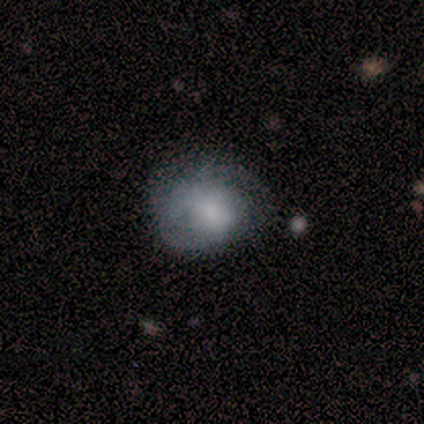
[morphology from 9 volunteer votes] Smooth or featured: smooth — 67% (featured or disk — 22%)
How rounded: in between — 83% (cigar-shaped — 17%)
Merging: none — 38% (tied with major disturbance — 38%)